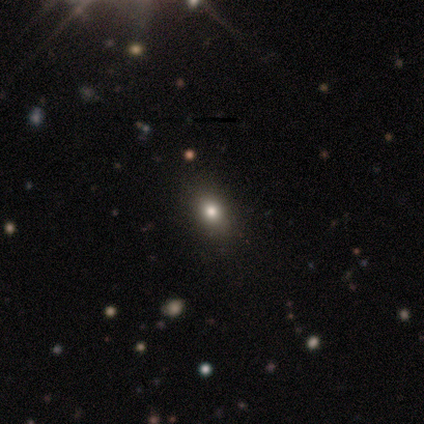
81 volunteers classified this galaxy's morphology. A smooth galaxy with no disk features (67%) that is in between round and cigar-shaped (54%). Merging: none (91%).